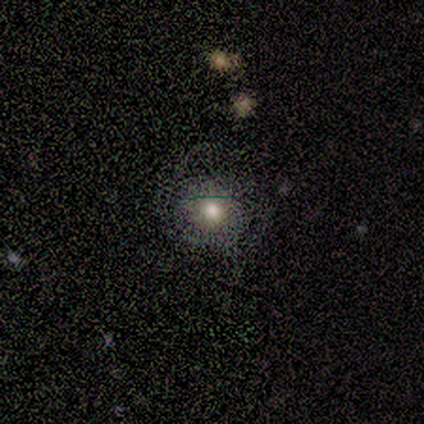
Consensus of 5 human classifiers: Smooth or featured? smooth (80%)
How rounded? round (100%)
Merging? none (80%)